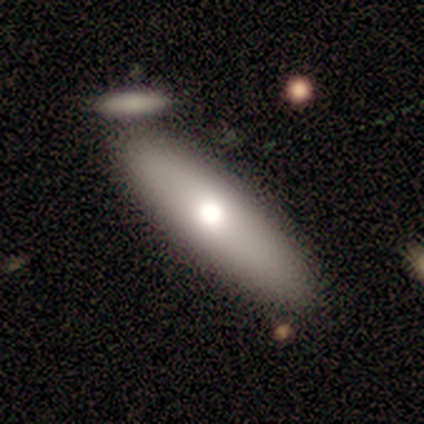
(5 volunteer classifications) smooth-or-featured: smooth: 100% | featured or disk: 0% | star or artifact: 0%
  how-rounded: in between: 80% | cigar-shaped: 20% | round: 0%
  merging: none: 80% | merger: 20% | minor disturbance: 0% | major disturbance: 0%